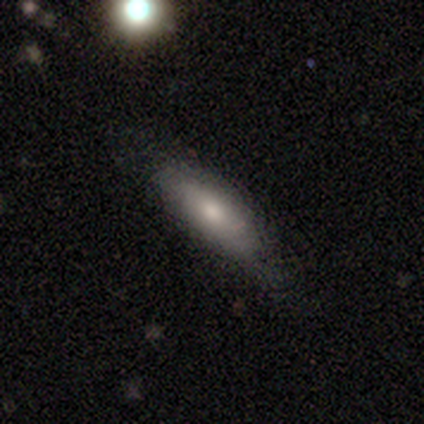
smooth 71%, featured or disk 29%, star or artifact 0%. Down the decision tree: how rounded — in between (71%); merging — none (35%).